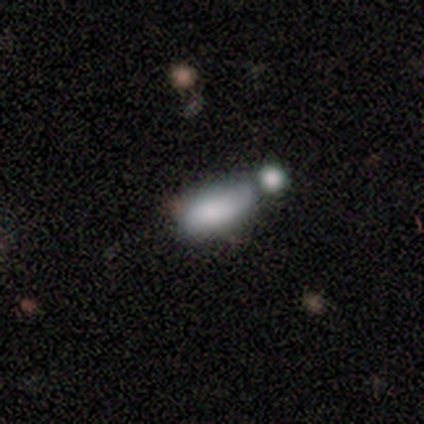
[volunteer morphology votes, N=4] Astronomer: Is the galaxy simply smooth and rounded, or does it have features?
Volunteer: smooth — 100%.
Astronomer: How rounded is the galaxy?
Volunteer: in between — 100%.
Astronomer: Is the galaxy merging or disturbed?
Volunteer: minor disturbance — 50%.